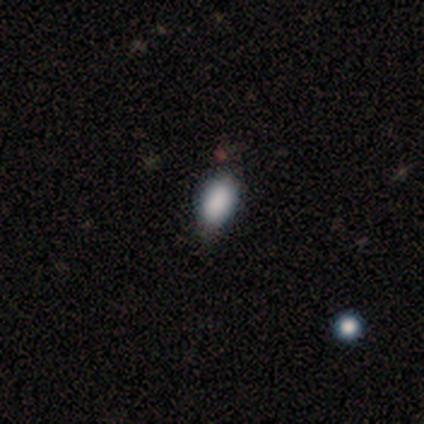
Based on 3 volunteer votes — Smooth or featured?
  - smooth: 100% *
  - featured or disk: 0%
  - star or artifact: 0%
How rounded?
  - in between: 100% *
  - round: 0%
  - cigar-shaped: 0%
Merging?
  - none: 67% *
  - minor disturbance: 33%
  - major disturbance: 0%
  - merger: 0%